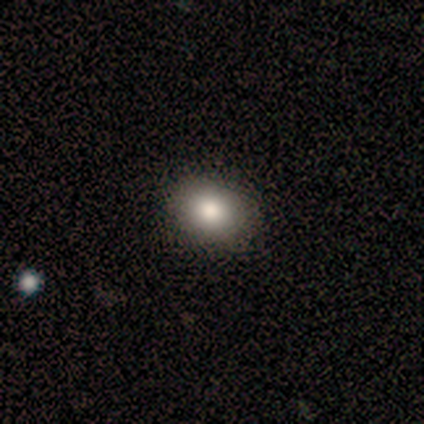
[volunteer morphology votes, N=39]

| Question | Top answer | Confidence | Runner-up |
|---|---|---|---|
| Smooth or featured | smooth | 74% | star or artifact (15%) |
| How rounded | in between | 59% | round (41%) |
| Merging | none | 91% | minor disturbance (9%) |